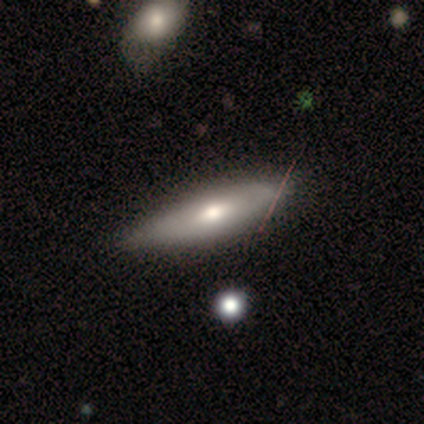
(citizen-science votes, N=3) smooth-or-featured: smooth: 67% | featured or disk: 33% | star or artifact: 0%
  how-rounded: in between: 50% (tied) | cigar-shaped: 50% (tied) | round: 0%
  merging: none: 100% | minor disturbance: 0% | major disturbance: 0% | merger: 0%